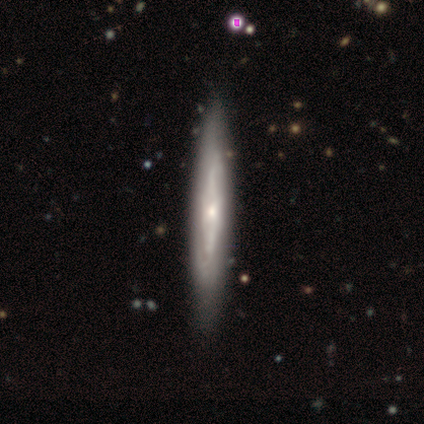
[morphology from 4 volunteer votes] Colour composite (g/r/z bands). It shows a featured or disk galaxy (75%) viewed edge-on (67%) with a boxy central bulge (50%, tied with rounded). Merging: none (67%).